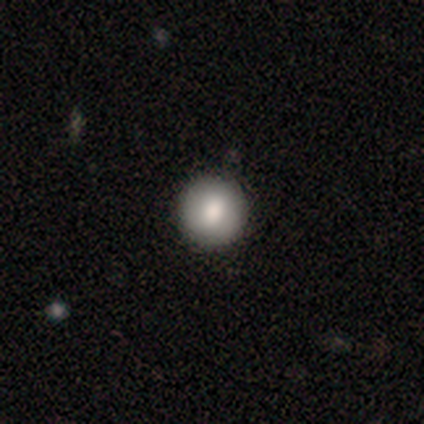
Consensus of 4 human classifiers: smooth_or_featured: smooth (p=0.50) [tied with: featured or disk p=0.50]
how_rounded: round (p=0.50) [tied with: in between p=0.50]
merging: none (p=0.50) [alt: minor disturbance p=0.25]